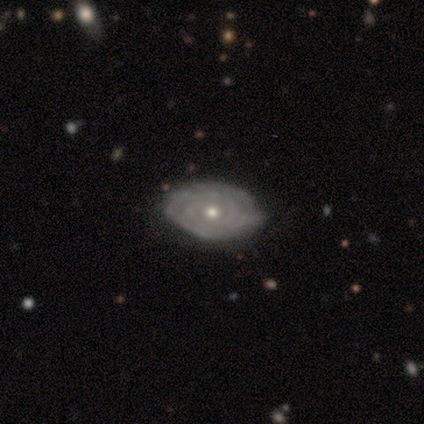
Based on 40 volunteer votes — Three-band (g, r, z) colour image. It shows a featured or disk galaxy (85%) with no bar (91%), tight (75%) spiral arms (73%) and a moderate central bulge (55%). Merging: none (50%).